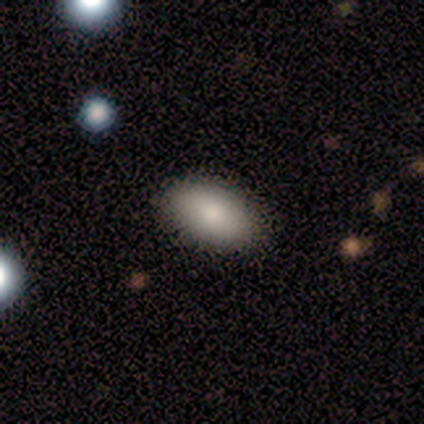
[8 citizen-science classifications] A smooth galaxy with no disk features (88%) that is in between round and cigar-shaped (100%). Merging: none (88%).